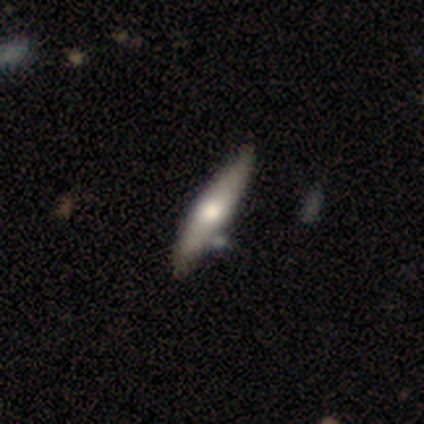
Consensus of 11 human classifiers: A smooth galaxy with no disk features (64%) that is cigar-shaped (71%). Merging: none (73%).